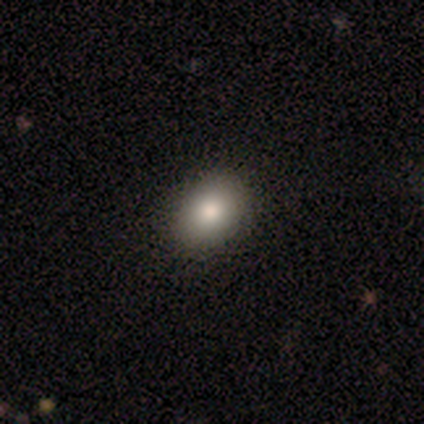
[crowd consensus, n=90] Smooth or featured: smooth — 81% (featured or disk — 11%)
How rounded: in between — 56% (round — 44%)
Merging: none — 92% (minor disturbance — 6%)